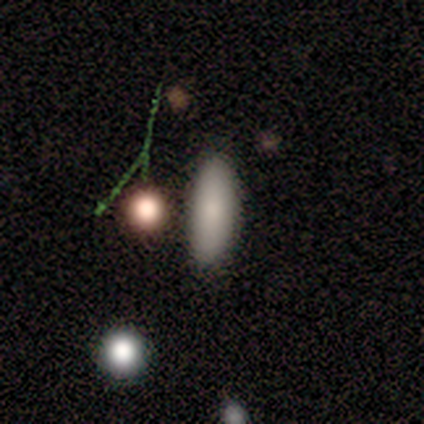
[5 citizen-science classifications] Morphology: type=smooth (100%); roundness=cigar-shaped (80%); merging=none (80%).